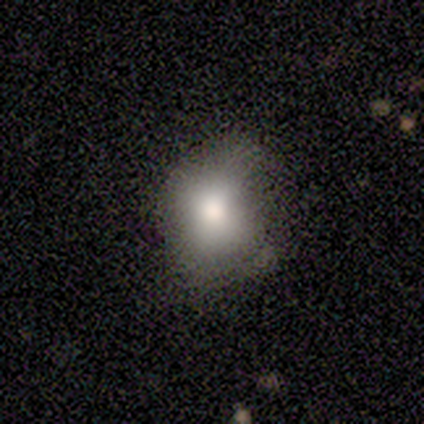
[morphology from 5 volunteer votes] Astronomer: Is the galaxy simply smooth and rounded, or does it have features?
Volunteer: smooth — 80%.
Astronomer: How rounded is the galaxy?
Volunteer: round — 50%, tied with in between at 50%.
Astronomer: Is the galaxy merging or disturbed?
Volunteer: none — 50%.